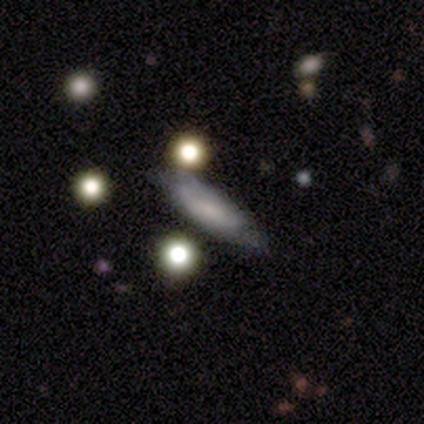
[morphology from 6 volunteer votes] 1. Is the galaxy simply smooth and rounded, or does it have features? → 67% featured or disk, 17% smooth, 17% star or artifact.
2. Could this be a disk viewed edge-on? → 50% yes (tied), 50% no (tied).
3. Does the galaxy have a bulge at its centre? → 50% boxy (tied), 50% none (tied), 0% rounded.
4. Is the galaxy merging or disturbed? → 80% none, 20% merger, 0% minor disturbance, 0% major disturbance.